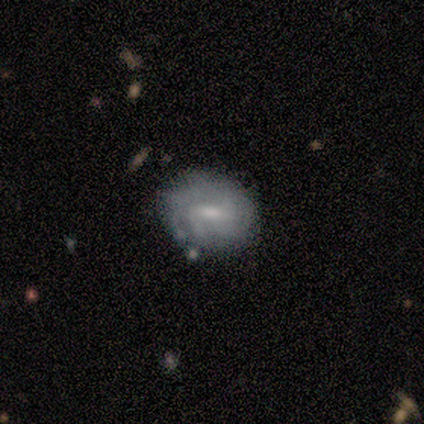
Smooth or featured? 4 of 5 (80%) said featured or disk. Edge-on disk? 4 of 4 (100%) said no. Bar? 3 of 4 (75%) said weak. Spiral arms? 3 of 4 (75%) said yes. Spiral winding? 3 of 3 (100%) said tight. Spiral arm count? 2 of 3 (67%) said 3. Bulge size? 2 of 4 (50%, tied with small) said moderate. Merging? 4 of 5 (80%) said none.